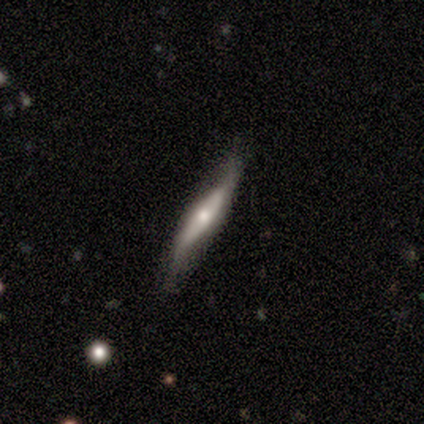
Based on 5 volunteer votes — Smooth or featured: featured or disk — 80% (star or artifact — 20%)
Edge-on disk: yes — 75% (no — 25%)
Edge-on bulge: rounded — 100%
Merging: minor disturbance — 50% (none — 25%)